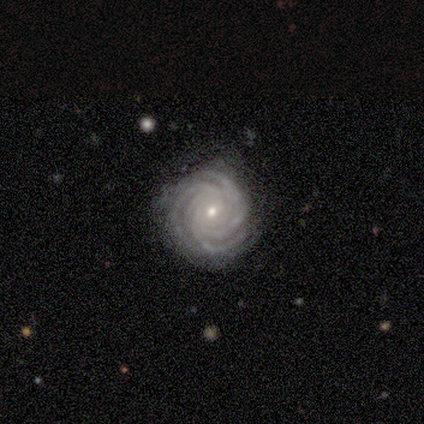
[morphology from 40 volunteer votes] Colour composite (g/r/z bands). It shows a featured or disk galaxy (90%) with no bar (81%), 3 (36%) tight (94%) spiral arms (100%) and a small central bulge (75%). Merging: none (72%).